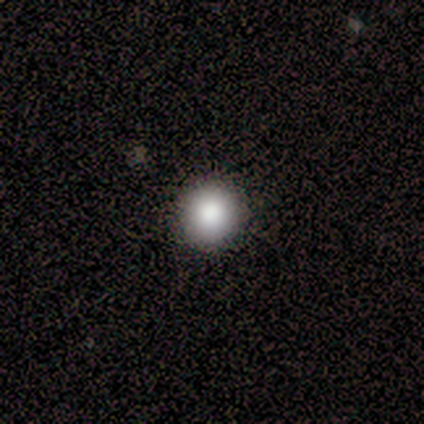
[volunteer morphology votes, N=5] A smooth galaxy with no disk features (100%) that is round (100%). Merging: none (80%).